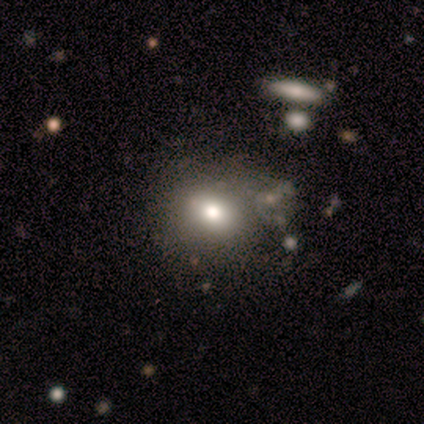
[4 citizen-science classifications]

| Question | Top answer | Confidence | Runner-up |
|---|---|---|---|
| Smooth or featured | smooth | 75% | featured or disk (25%) |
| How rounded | round | 67% | in between (33%) |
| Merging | none | 75% | minor disturbance (25%) |